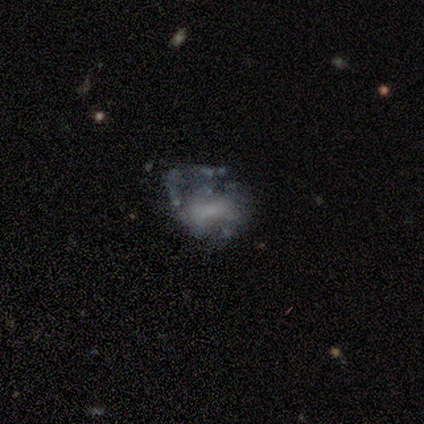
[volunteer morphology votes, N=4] This is possibly a featured or disk galaxy (50%). It is clearly not viewed edge-on (100%). Bar: clearly no (100%). Spiral arm pattern: clearly no (100%). Central bulge: clearly small (100%). Merging: clearly major disturbance (100%).